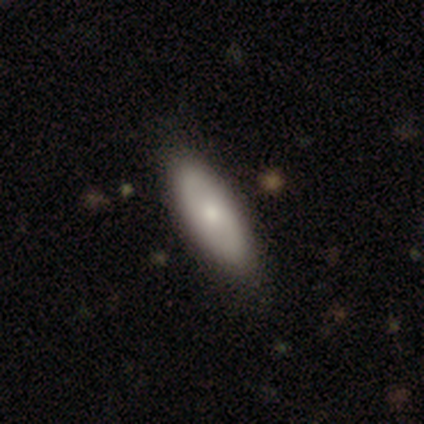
smooth-or-featured: smooth: 100% | featured or disk: 0% | star or artifact: 0%
  how-rounded: in between: 80% | cigar-shaped: 20% | round: 0%
  merging: none: 60% | minor disturbance: 40% | major disturbance: 0% | merger: 0%